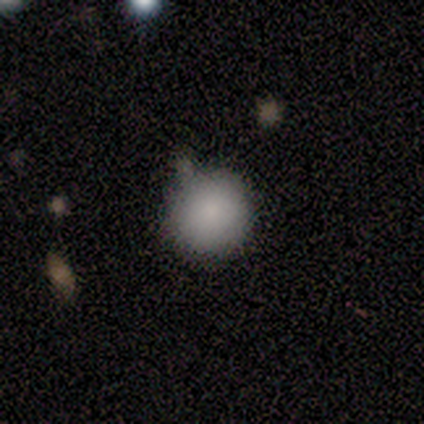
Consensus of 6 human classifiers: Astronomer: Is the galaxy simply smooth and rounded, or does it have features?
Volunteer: smooth — 83%.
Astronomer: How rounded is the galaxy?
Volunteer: round — 100%.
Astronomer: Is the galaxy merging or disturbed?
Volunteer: none — 60%.